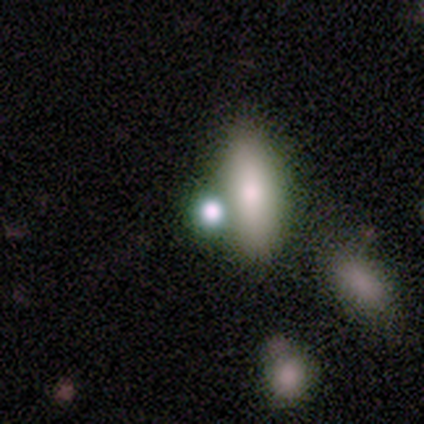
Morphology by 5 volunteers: Volunteers were most divided on "smooth or featured": star or artifact: 60%, smooth: 40%, featured or disk: 0%.